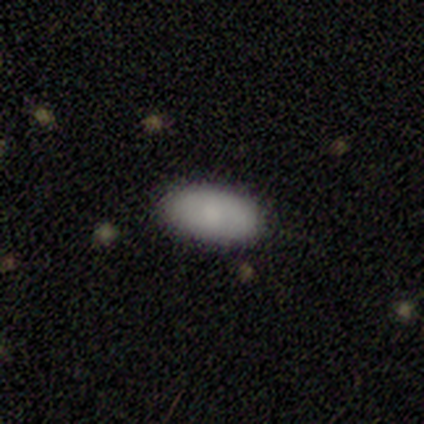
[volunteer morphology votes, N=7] Smooth or featured? 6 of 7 (86%) said smooth. How rounded? 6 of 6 (100%) said in between. Merging? 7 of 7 (100%) said none.